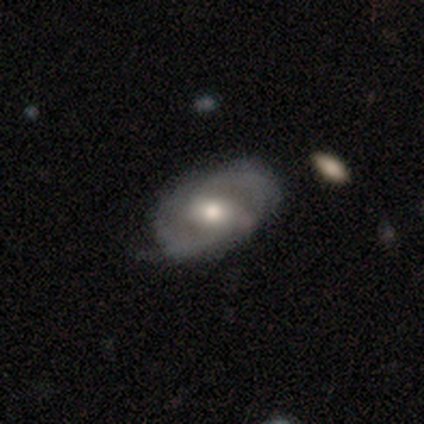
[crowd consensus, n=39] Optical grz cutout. It shows a featured or disk galaxy (87%) with a weak bar (62%), 2 (90%) medium (50%) spiral arms (88%) and a moderate central bulge (94%). Merging: none (61%).